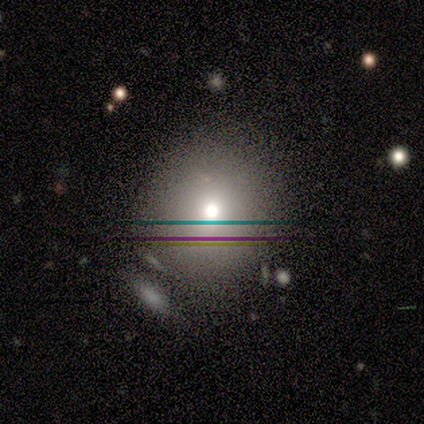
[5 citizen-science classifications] A smooth galaxy with no disk features (60%) that is round (100%). Merging: none (75%).